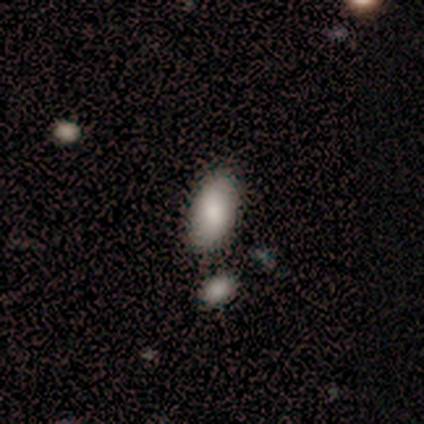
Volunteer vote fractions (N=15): Smooth or featured: smooth — 87% (star or artifact — 13%)
How rounded: in between — 100%
Merging: none — 92% (merger — 8%)